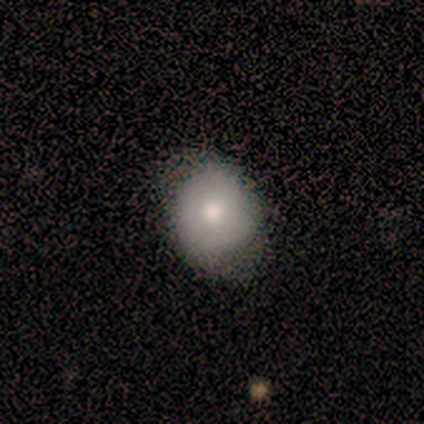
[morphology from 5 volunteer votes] Smooth or featured? 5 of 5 (100%) said smooth. How rounded? 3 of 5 (60%) said round. Merging? 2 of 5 (40%, tied with major disturbance) said none.